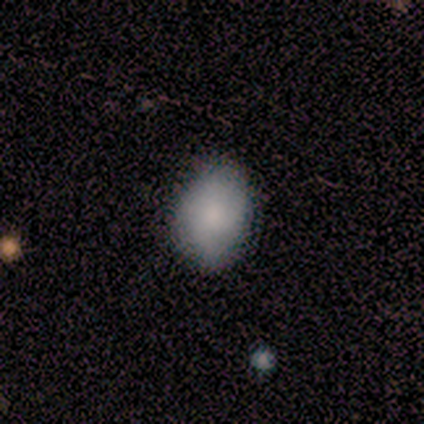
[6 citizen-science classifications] Volunteers were most divided on "how rounded": in between: 80%, round: 20%, cigar-shaped: 0%. More confident: merging — none (100%); smooth or featured — smooth (83%).